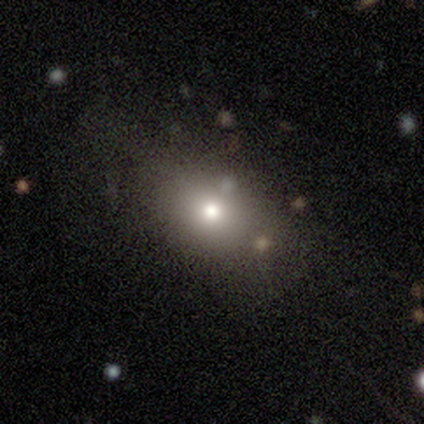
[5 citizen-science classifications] Smooth or featured: smooth — 80% (featured or disk — 20%)
How rounded: in between — 50% (round — 25%)
Merging: none — 100%